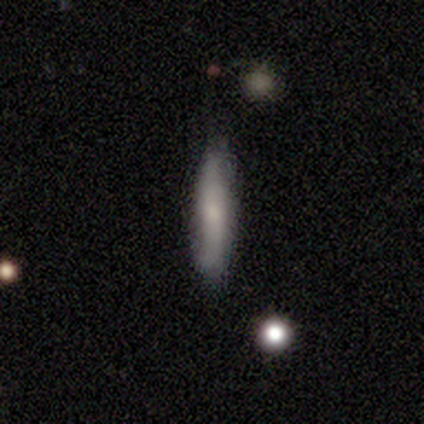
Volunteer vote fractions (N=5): Volunteers were most divided on "smooth or featured": smooth: 80%, star or artifact: 20%, featured or disk: 0%. More confident: how rounded — cigar-shaped (100%); merging — none (100%).